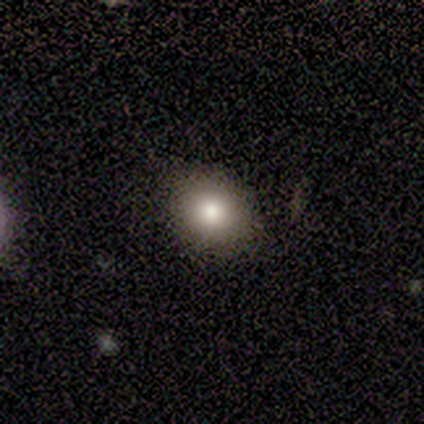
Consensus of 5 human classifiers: smooth 80%, featured or disk 20%, star or artifact 0%. Down the decision tree: how rounded — round (100%); merging — none (100%).